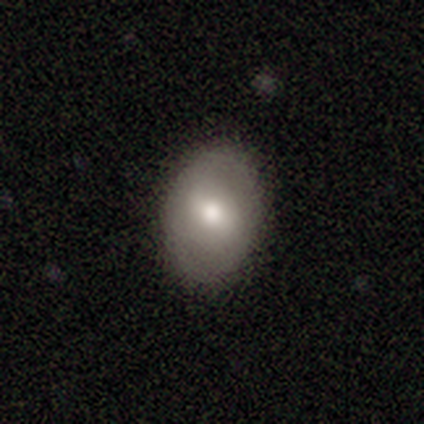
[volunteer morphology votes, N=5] Smooth or featured: smooth — 80% (featured or disk — 20%)
How rounded: in between — 75% (round — 25%)
Merging: none — 60% (minor disturbance — 20%)